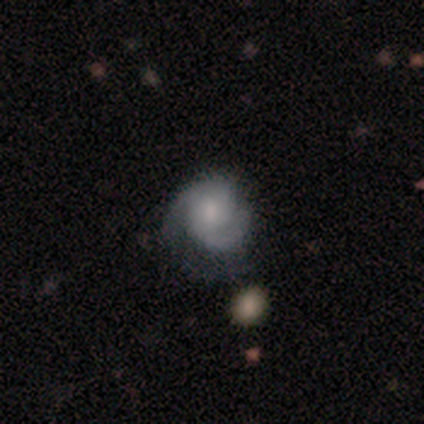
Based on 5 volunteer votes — Smooth or featured? smooth (40%, tied with featured or disk)
How rounded? round (100%)
Merging? none (50%)